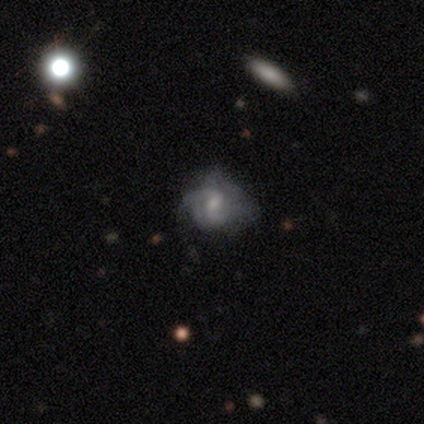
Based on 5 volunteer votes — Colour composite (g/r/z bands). It shows a star or artifact, not a galaxy (60%).